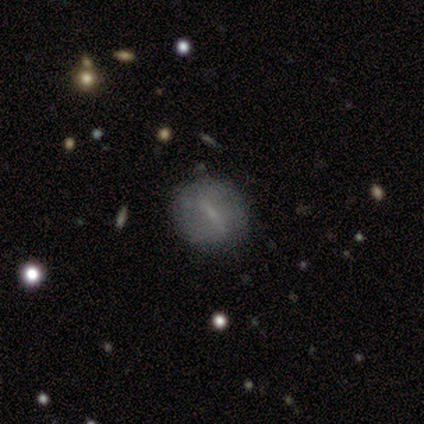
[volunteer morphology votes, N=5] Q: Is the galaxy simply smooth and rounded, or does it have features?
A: smooth — 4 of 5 (80%).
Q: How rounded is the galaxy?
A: round — 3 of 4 (75%).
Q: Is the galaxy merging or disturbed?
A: none — 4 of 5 (80%).